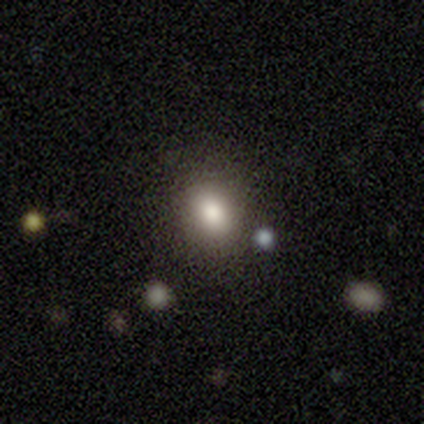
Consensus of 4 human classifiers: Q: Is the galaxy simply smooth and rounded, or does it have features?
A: smooth — 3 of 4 (75%).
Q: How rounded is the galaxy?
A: round — 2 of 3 (67%).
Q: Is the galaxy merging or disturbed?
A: none — 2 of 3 (67%).